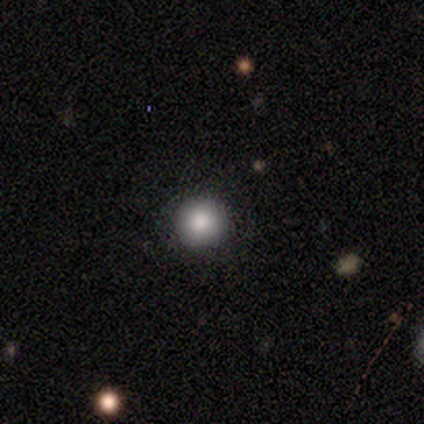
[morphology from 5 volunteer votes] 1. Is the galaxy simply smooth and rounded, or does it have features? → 100% smooth, 0% featured or disk, 0% star or artifact.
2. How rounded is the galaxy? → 100% round, 0% in between, 0% cigar-shaped.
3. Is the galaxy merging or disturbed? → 100% none, 0% minor disturbance, 0% major disturbance, 0% merger.